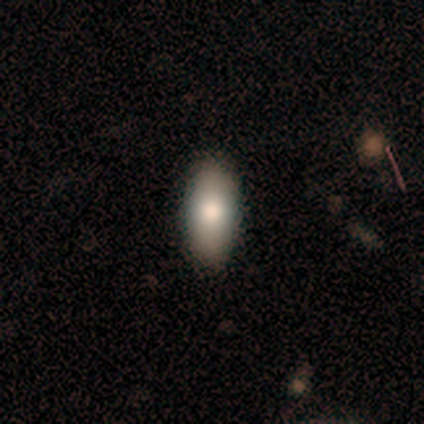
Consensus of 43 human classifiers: Smooth or featured?
  - smooth: 72% *
  - featured or disk: 26%
  - star or artifact: 2%
How rounded?
  - in between: 87% *
  - cigar-shaped: 13%
  - round: 0%
Merging?
  - none: 83% *
  - major disturbance: 10%
  - minor disturbance: 7%
  - merger: 0%